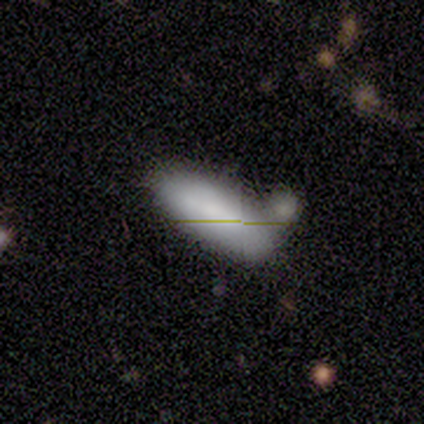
Morphology: type=smooth (100%); roundness=in between (60%); merging=none (100%).